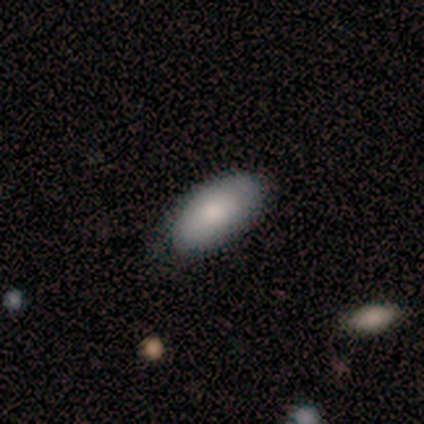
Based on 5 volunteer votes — Overall: smooth (100%). How rounded: in between (100%). Merging: none (80%).